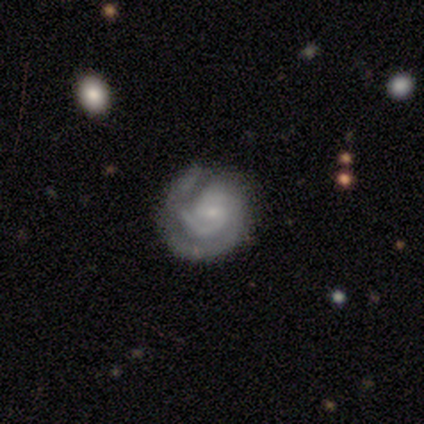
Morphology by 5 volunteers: Smooth or featured? 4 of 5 (80%) said featured or disk. Edge-on disk? 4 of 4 (100%) said no. Bar? 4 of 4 (100%) said weak. Spiral arms? 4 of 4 (100%) said yes. Spiral winding? 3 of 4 (75%) said medium. Spiral arm count? 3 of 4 (75%) said 2. Bulge size? 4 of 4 (100%) said small. Merging? 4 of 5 (80%) said none.